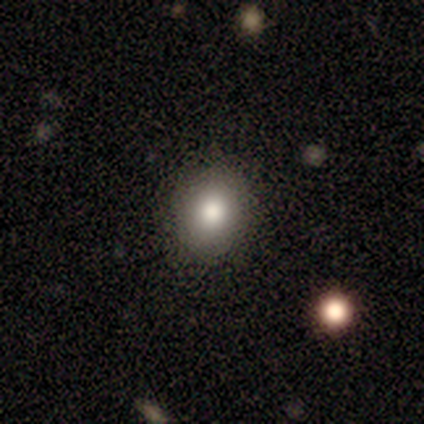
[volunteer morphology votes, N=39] This is clearly a smooth galaxy (85%). How rounded: likely round (70%). Merging: likely none (64%).